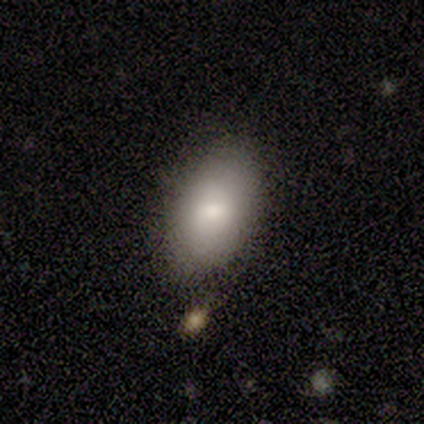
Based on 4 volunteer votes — This appears to be a smooth galaxy with no disk features (100%) that is in between round and cigar-shaped (75%). Merging: none (75%).